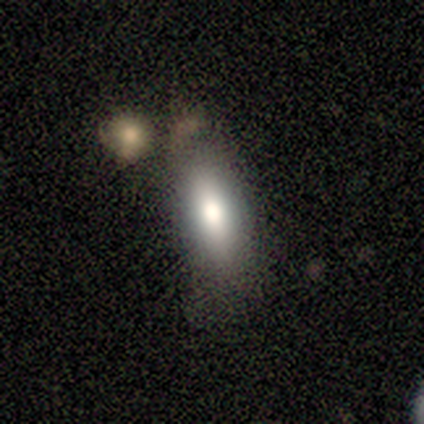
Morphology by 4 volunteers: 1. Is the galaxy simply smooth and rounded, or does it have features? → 100% smooth, 0% featured or disk, 0% star or artifact.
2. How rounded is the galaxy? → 75% in between, 25% cigar-shaped, 0% round.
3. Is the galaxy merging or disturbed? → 50% none (tied), 50% merger (tied), 0% minor disturbance, 0% major disturbance.